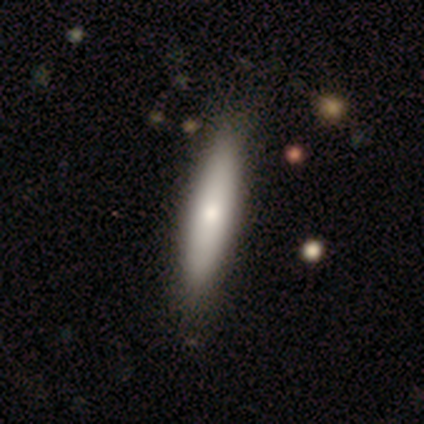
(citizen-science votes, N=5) Smooth or featured: featured or disk — 60% (smooth — 40%)
Edge-on disk: yes — 67% (no — 33%)
Edge-on bulge: rounded — 100%
Merging: none — 60% (minor disturbance — 40%)